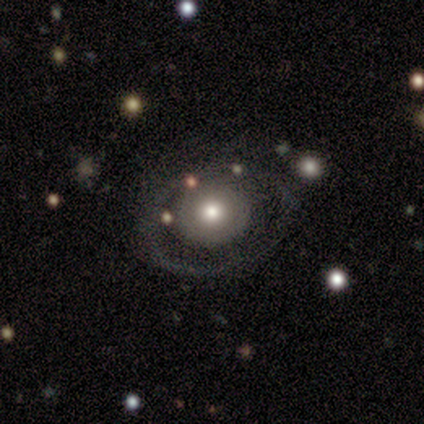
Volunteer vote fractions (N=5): Overall: featured or disk (60%; smooth 40%). Edge-on disk: no (100%). Bar: no (100%). Spiral arms: no (100%). Bulge size: moderate (67%; large 33%). Merging: none (100%).